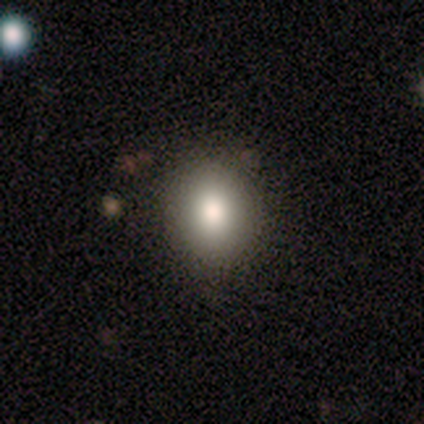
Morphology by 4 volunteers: Smooth or featured?
  - smooth: 100% *
  - featured or disk: 0%
  - star or artifact: 0%
How rounded?
  - round: 50% * (tied)
  - in between: 50% * (tied)
  - cigar-shaped: 0%
Merging?
  - none: 100% *
  - minor disturbance: 0%
  - major disturbance: 0%
  - merger: 0%